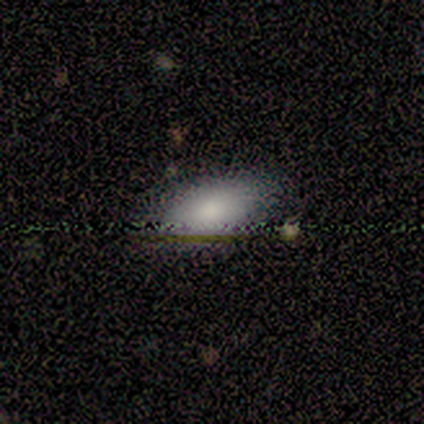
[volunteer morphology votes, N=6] smooth_or_featured: smooth (p=0.67) [alt: featured or disk p=0.17]
how_rounded: in between (p=1.00)
merging: none (p=0.60) [alt: minor disturbance p=0.20]